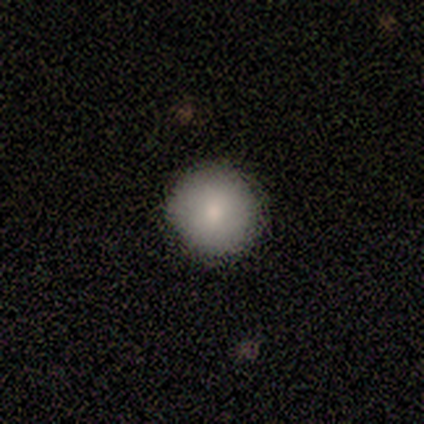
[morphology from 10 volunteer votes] Smooth or featured? 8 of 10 (80%) said smooth. How rounded? 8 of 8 (100%) said round. Merging? 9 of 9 (100%) said none.